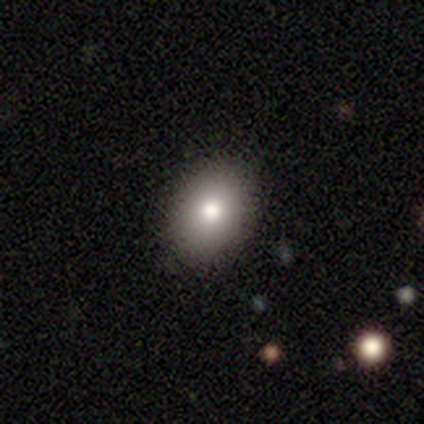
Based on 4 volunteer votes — Smooth or featured? 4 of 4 (100%) said smooth. How rounded? 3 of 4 (75%) said in between. Merging? 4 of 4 (100%) said none.